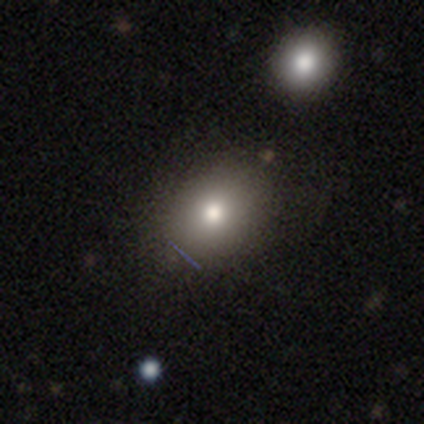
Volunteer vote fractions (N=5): A smooth galaxy with no disk features (60%) that is round (67%). Merging: none (100%).